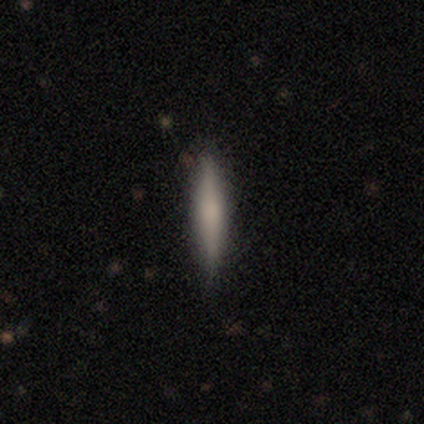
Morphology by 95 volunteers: smooth-or-featured: smooth: 71% | featured or disk: 26% | star or artifact: 3%
  how-rounded: cigar-shaped: 99% | in between: 1% | round: 0%
  merging: none: 86% | minor disturbance: 11% | merger: 2% | major disturbance: 1%